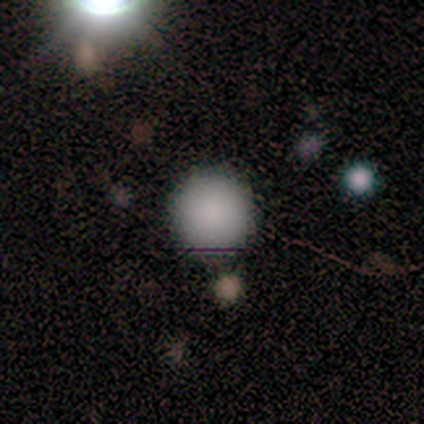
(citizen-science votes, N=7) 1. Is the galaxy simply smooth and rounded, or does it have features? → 100% smooth, 0% featured or disk, 0% star or artifact.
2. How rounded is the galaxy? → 100% round, 0% in between, 0% cigar-shaped.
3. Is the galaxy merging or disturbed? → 100% none, 0% minor disturbance, 0% major disturbance, 0% merger.